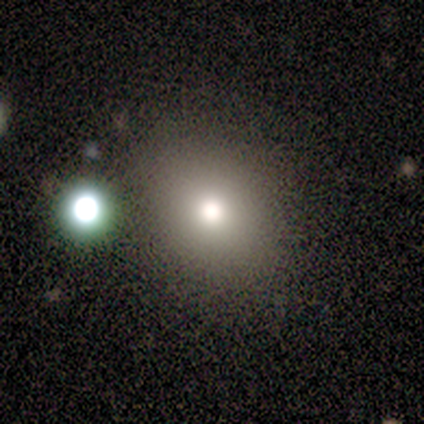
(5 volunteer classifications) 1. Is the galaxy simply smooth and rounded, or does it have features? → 100% smooth, 0% featured or disk, 0% star or artifact.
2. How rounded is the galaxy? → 80% round, 20% in between, 0% cigar-shaped.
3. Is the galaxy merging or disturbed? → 80% none, 20% merger, 0% minor disturbance, 0% major disturbance.